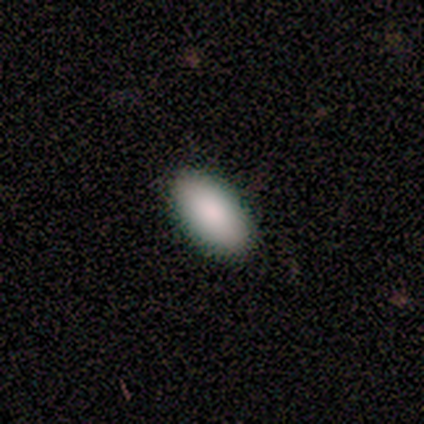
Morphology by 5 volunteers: Smooth or featured? smooth (100%)
How rounded? in between (100%)
Merging? none (100%)